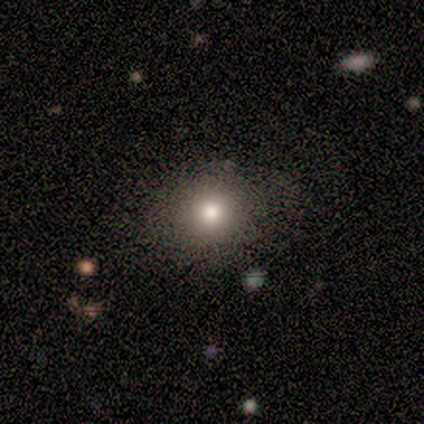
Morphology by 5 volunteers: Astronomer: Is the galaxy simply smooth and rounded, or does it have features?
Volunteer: smooth — 80%.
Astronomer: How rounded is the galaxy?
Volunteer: round — 50%, tied with in between at 50%.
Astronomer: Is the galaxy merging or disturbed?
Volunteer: none — 80%.